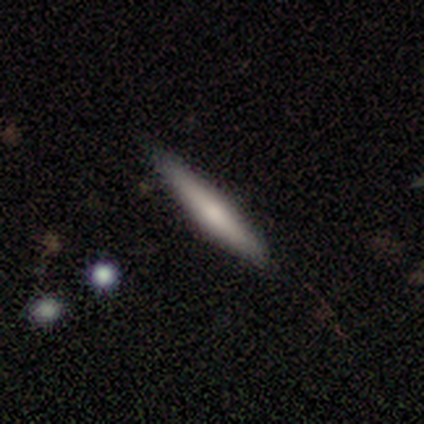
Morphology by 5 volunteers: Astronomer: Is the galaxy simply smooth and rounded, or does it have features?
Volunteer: smooth — 60% (runner-up: featured or disk, 40%).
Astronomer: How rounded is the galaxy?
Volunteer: cigar-shaped — 100%.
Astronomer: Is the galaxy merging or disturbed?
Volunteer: none — 80%.